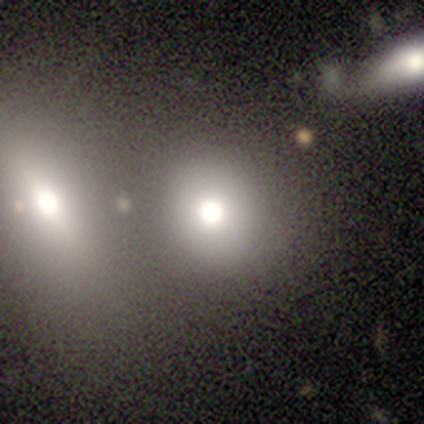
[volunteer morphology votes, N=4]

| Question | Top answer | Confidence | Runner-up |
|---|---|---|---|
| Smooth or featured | star or artifact | 50% | smooth (25%) |